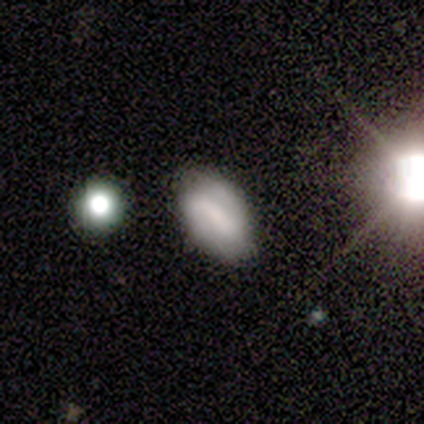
Morphology: type=featured or disk (60%); edge-on=no (67%); bar=strong (50%, tied with no); spiral arms=yes (100%); winding=medium (100%); arm count=2 (100%); bulge=small (100%); merging=none (100%).